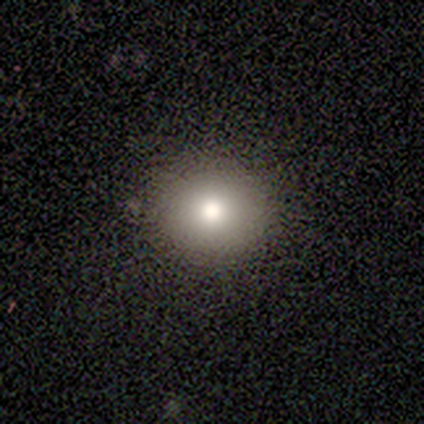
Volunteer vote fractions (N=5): This appears to be a featured or disk galaxy (40%, tied with star or artifact) with no bar (100%), no spiral arms (100%) and a large central bulge (50%, tied with moderate). Merging: none (100%).